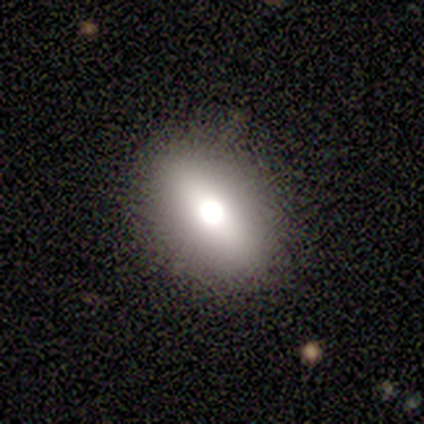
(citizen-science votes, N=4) Q: Smooth or featured?
A: featured or disk (50%); tied with: star or artifact (50%)
Q: Edge-on disk?
A: no (100%)
Q: Bar?
A: strong (50%); tied with: no (50%)
Q: Spiral arms?
A: no (100%)
Q: Bulge size?
A: dominant (50%); tied with: moderate (50%)
Q: Merging?
A: none (100%)